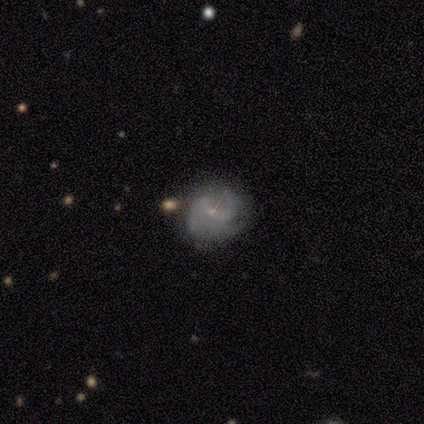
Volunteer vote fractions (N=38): This appears to be a featured or disk galaxy (71%) with a weak bar (52%), 2 (35%, tied with can't tell) medium (58%) spiral arms (96%) and a small central bulge (85%). Merging: none (65%).